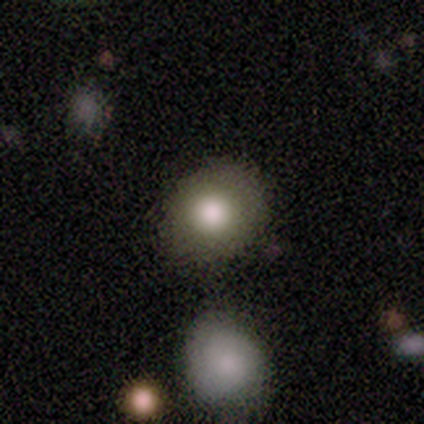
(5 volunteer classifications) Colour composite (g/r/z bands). It shows a smooth galaxy with no disk features (100%) that is round (100%). Merging: none (80%).